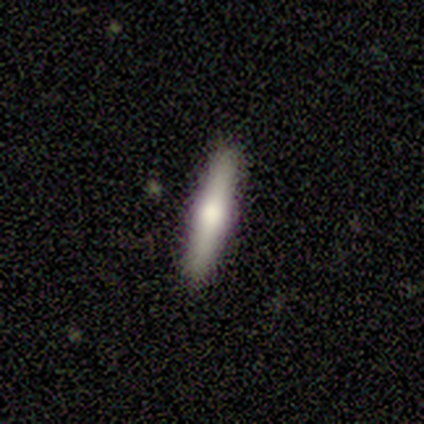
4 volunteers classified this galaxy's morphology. Overall: featured or disk (75%). Edge-on disk: yes (100%). Edge-on bulge: rounded (100%). Merging: none (100%).